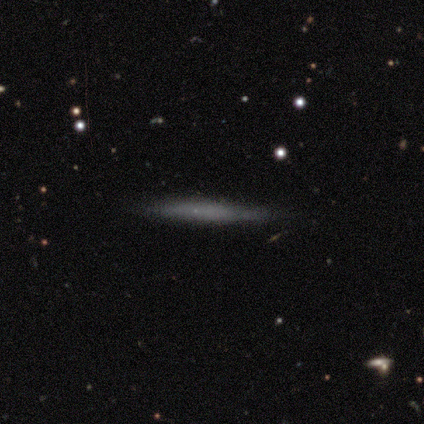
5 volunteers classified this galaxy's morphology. type=featured or disk (60%); edge-on=yes (100%); edge-on bulge=none (100%); merging=none (80%).